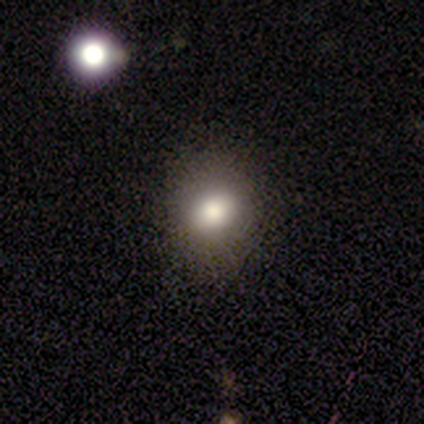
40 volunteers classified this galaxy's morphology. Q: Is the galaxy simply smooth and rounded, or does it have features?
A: smooth — 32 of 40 (80%).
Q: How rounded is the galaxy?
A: round — 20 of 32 (62%).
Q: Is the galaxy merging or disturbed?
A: none — 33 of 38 (87%).